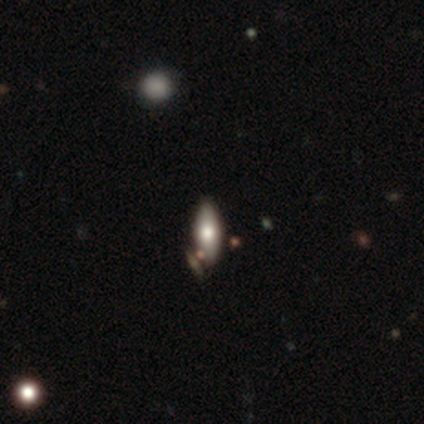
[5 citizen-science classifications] This appears to be a smooth galaxy with no disk features (80%) that is in between round and cigar-shaped (75%). Merging: none (80%).